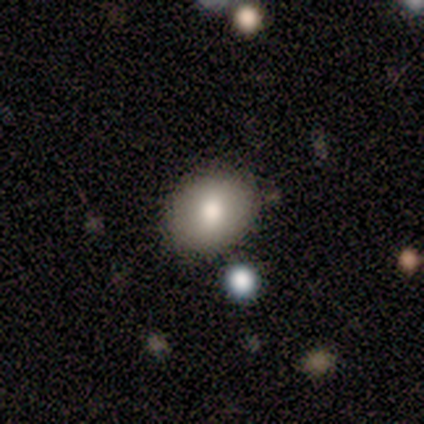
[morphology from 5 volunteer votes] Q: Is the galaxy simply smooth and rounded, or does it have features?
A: smooth — 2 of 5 (40%, tied with star or artifact).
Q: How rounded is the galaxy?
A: round — 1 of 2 (50%, tied with in between).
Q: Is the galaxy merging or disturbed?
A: none — 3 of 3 (100%).